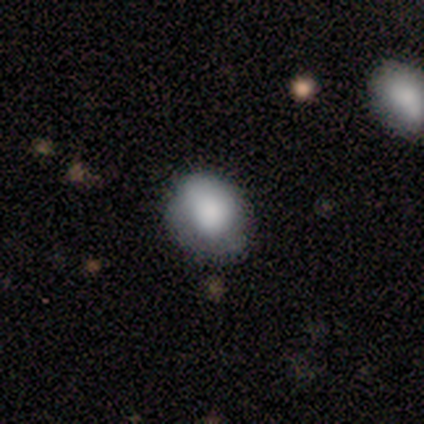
Smooth or featured? smooth (75%)
How rounded? round (60%)
Merging? none (51%)